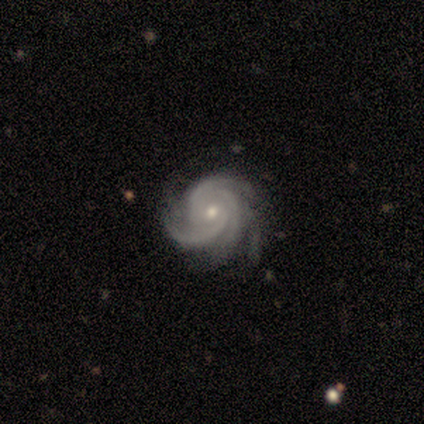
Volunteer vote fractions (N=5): Smooth or featured?
  - featured or disk: 100% *
  - smooth: 0%
  - star or artifact: 0%
Edge-on disk?
  - no: 100% *
  - yes: 0%
Bar?
  - no: 100% *
  - strong: 0%
  - weak: 0%
Spiral arms?
  - yes: 100% *
  - no: 0%
Spiral winding?
  - tight: 80% *
  - medium: 20%
  - loose: 0%
Spiral arm count?
  - 3: 40% * (tied)
  - 4: 40% * (tied)
  - more than 4: 20%
  - 1: 0%
  - 2: 0%
  - can't tell: 0%
Bulge size?
  - small: 80% *
  - moderate: 20%
  - dominant: 0%
  - large: 0%
  - none: 0%
Merging?
  - none: 100% *
  - minor disturbance: 0%
  - major disturbance: 0%
  - merger: 0%